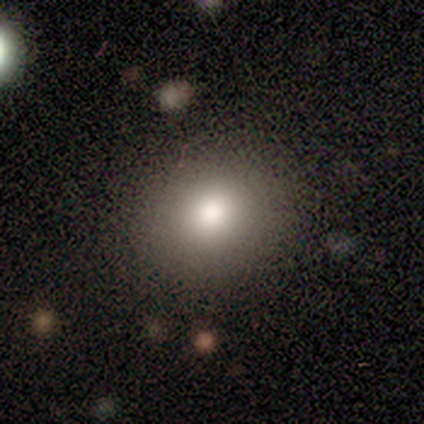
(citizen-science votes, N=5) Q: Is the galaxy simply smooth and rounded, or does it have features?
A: smooth — 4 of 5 (80%).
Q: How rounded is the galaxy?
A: round — 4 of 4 (100%).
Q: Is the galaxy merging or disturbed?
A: none — 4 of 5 (80%).